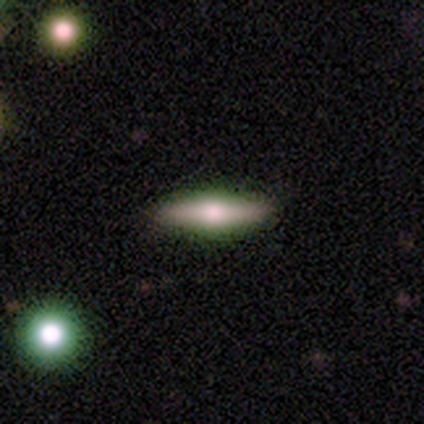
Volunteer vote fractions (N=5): Overall: featured or disk (100%). Edge-on disk: yes (100%). Edge-on bulge: rounded (100%). Merging: none (60%; minor disturbance 40%).